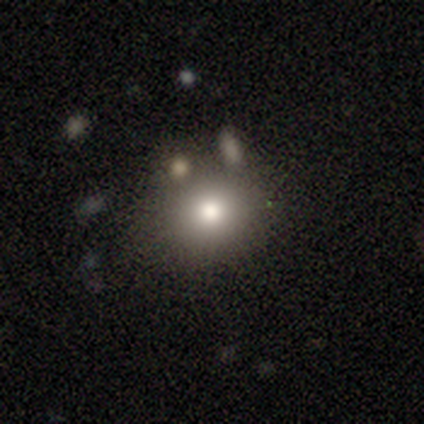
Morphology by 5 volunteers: Smooth or featured: star or artifact — 60% (smooth — 40%)